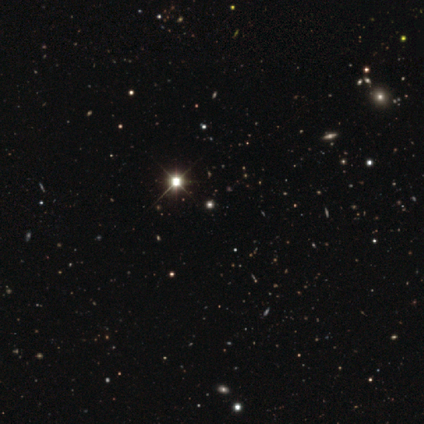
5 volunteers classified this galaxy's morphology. smooth-or-featured: star or artifact: 80% | featured or disk: 20% | smooth: 0%